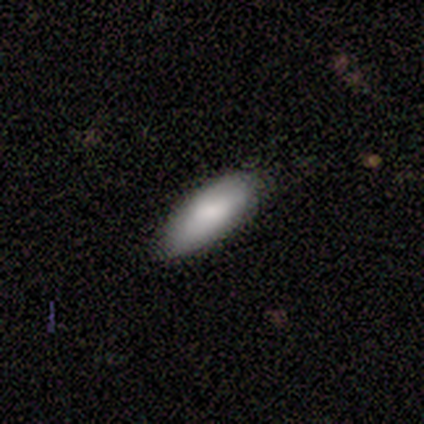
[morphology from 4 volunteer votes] Smooth or featured? smooth (75%)
How rounded? cigar-shaped (67%)
Merging? none (67%)